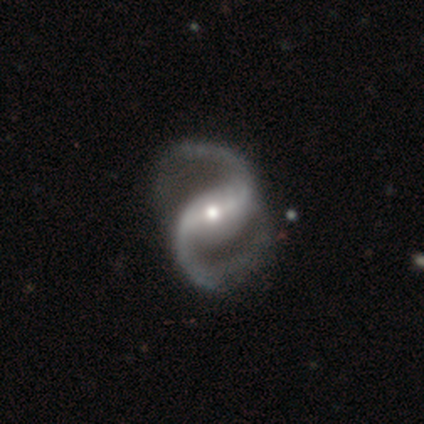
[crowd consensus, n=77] Q: Smooth or featured?
A: featured or disk (96%); runner-up: smooth (3%)
Q: Edge-on disk?
A: no (100%)
Q: Bar?
A: strong (59%); runner-up: weak (23%)
Q: Spiral arms?
A: yes (99%); runner-up: no (1%)
Q: Spiral winding?
A: medium (48%); tied with: loose (48%)
Q: Spiral arm count?
A: 2 (100%)
Q: Bulge size?
A: moderate (57%); runner-up: small (35%)
Q: Merging?
A: none (37%); runner-up: minor disturbance (11%)